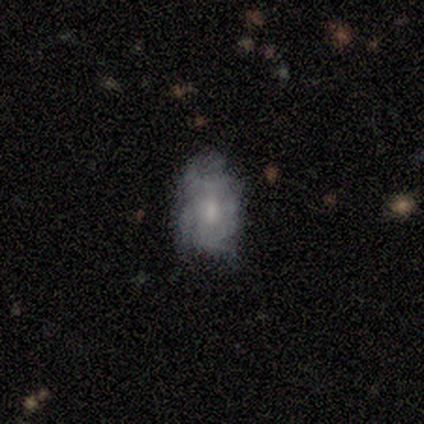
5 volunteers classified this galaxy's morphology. A featured or disk galaxy (60%) with a weak bar (67%), loose (67%) spiral arms (100%) and a moderate central bulge (67%). Merging: minor disturbance (40%, tied with major disturbance).